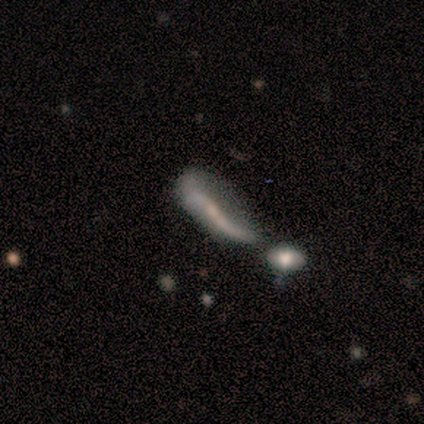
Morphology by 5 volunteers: Smooth or featured?
  - featured or disk: 80% *
  - smooth: 20%
  - star or artifact: 0%
Edge-on disk?
  - yes: 50% * (tied)
  - no: 50% * (tied)
Edge-on bulge?
  - boxy: 50% * (tied)
  - rounded: 50% * (tied)
  - none: 0%
Merging?
  - none: 40% * (tied)
  - merger: 40% * (tied)
  - major disturbance: 20%
  - minor disturbance: 0%